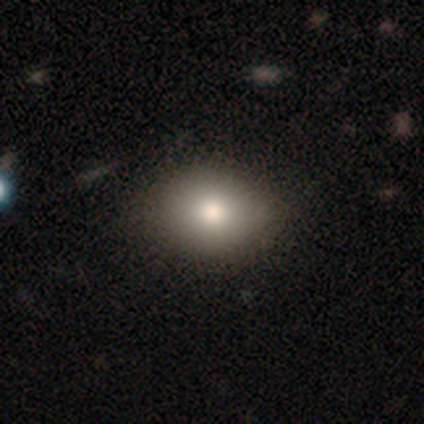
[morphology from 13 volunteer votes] Overall: smooth (77%). How rounded: round (50%, tied with in between). Merging: none (75%).